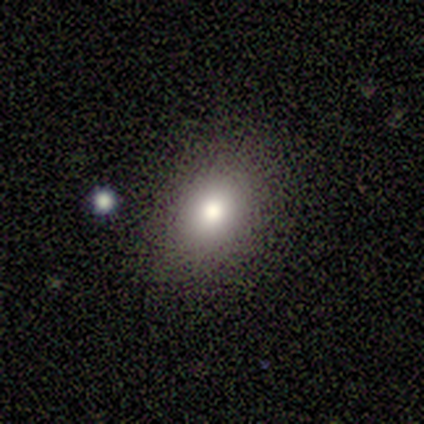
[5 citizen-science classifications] Volunteers were most divided on "how rounded": in between: 60%, round: 40%, cigar-shaped: 0%. More confident: smooth or featured — smooth (100%); merging — none (80%).